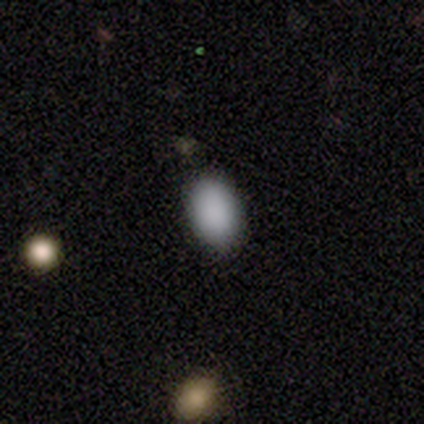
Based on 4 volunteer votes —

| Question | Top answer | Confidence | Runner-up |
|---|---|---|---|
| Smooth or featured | smooth | 100% | — |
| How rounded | in between | 100% | — |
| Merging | none | 100% | — |